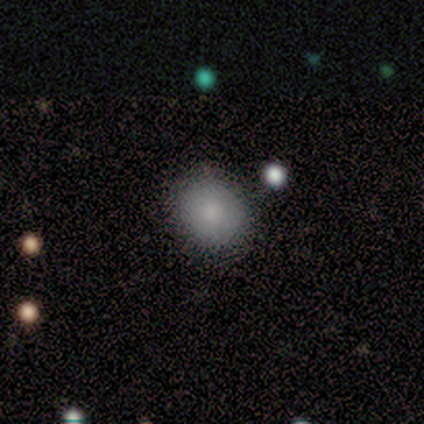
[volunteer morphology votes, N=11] A smooth galaxy with no disk features (91%) that is round (80%).

Vote fractions:
- Smooth or featured? smooth: 91% / star or artifact: 9% / featured or disk: 0%
- How rounded? round: 80% / in between: 20% / cigar-shaped: 0%
- Merging? none: 70% / minor disturbance: 30% / major disturbance: 0% / merger: 0%